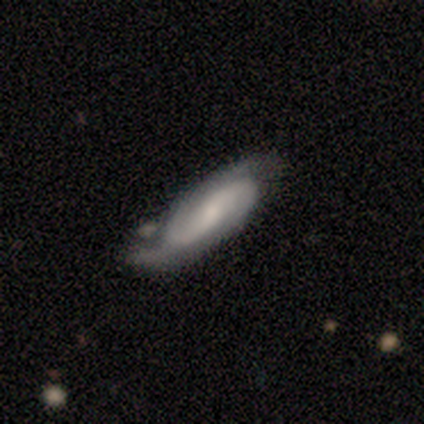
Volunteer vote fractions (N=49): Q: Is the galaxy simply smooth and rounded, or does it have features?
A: featured or disk — 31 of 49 (63%).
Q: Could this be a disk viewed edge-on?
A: no — 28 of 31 (90%).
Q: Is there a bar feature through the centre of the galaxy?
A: no — 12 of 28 (43%).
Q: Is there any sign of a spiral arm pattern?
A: yes — 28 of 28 (100%).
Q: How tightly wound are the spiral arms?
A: medium — 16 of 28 (57%).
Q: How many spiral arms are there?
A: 2 — 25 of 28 (89%).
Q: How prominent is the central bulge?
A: moderate — 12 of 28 (43%).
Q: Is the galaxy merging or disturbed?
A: none — 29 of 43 (67%).